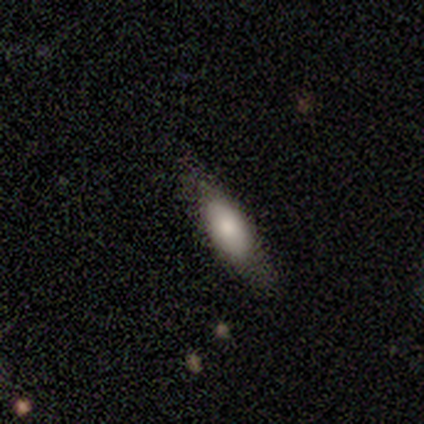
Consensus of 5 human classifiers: smooth_or_featured: featured or disk (p=0.40) [tied with: star or artifact p=0.40]
disk_edge_on: no (p=1.00)
bar: strong (p=0.50) [tied with: no p=0.50]
has_spiral_arms: yes (p=0.50) [tied with: no p=0.50]
spiral_winding: tight (p=1.00)
spiral_arm_count: can't tell (p=1.00)
bulge_size: large (p=0.50) [tied with: moderate p=0.50]
merging: minor disturbance (p=0.67) [alt: none p=0.33]